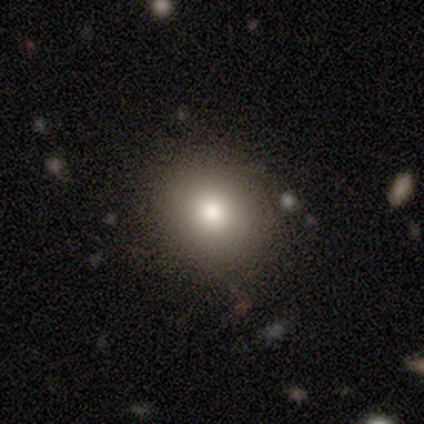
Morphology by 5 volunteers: Smooth or featured? smooth (60%)
How rounded? round (100%)
Merging? none (75%)